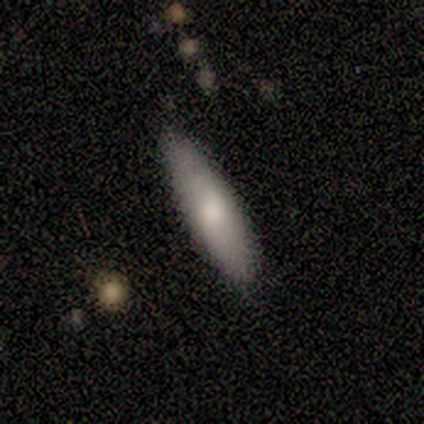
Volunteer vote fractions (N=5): Overall: smooth (80%). How rounded: cigar-shaped (75%). Merging: none (80%).